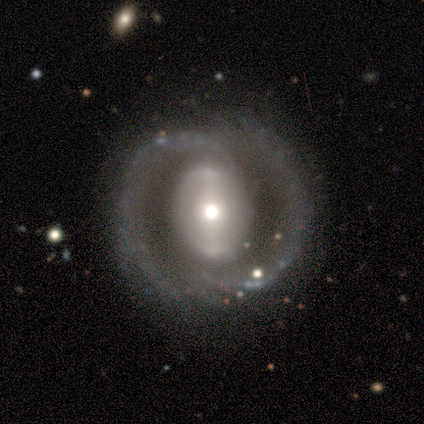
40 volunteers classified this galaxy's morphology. smooth-or-featured: featured or disk: 85% | smooth: 10% | star or artifact: 5%
  disk-edge-on: no: 97% | yes: 3%
    bar: strong: 42% | no: 36% | weak: 21%
    has-spiral-arms: yes: 70% | no: 30%
      spiral-winding: medium: 39% | tight: 35% | loose: 26%
      spiral-arm-count: 2: 91% | 1: 4% | 4: 4% | 3: 0% | more than 4: 0% | can't tell: 0%
    bulge-size: moderate: 64% | large: 24% | small: 9% | dominant: 3% | none: 0%
  merging: none: 71% | minor disturbance: 16% | major disturbance: 11% | merger: 3%